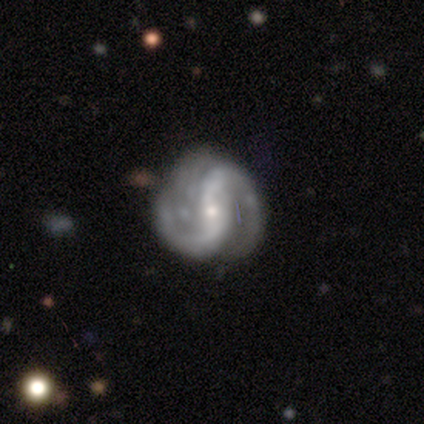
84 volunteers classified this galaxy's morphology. type=featured or disk (90%); edge-on=no (97%); bar=strong (41%); spiral arms=yes (97%); winding=medium (50%); arm count=2 (88%); bulge=small (80%); merging=none (61%).